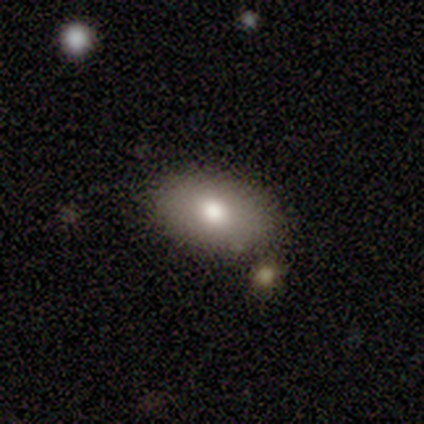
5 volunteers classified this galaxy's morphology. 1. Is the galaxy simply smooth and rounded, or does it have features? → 100% smooth, 0% featured or disk, 0% star or artifact.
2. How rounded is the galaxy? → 100% in between, 0% round, 0% cigar-shaped.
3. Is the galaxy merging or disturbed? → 80% none, 20% minor disturbance, 0% major disturbance, 0% merger.